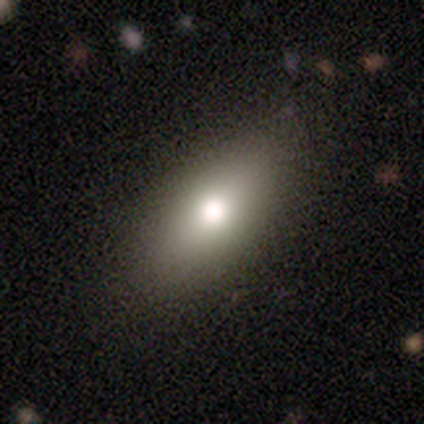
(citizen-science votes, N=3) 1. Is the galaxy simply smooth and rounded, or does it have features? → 67% smooth, 33% featured or disk, 0% star or artifact.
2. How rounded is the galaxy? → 100% in between, 0% round, 0% cigar-shaped.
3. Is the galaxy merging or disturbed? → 100% none, 0% minor disturbance, 0% major disturbance, 0% merger.